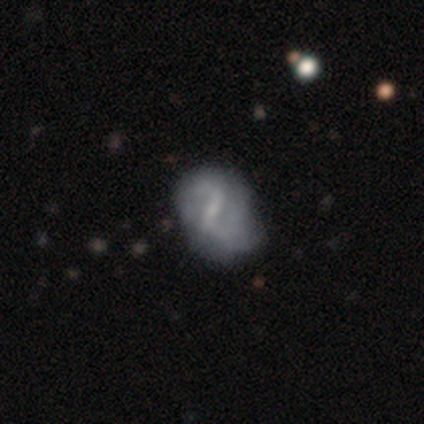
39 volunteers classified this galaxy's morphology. Overall: featured or disk (85%). Edge-on disk: no (100%). Bar: strong (52%; weak 42%). Spiral arms: yes (91%). Spiral arm count: 2 (80%). Spiral winding: loose (57%; medium 27%). Bulge size: small (55%; none 27%). Merging: minor disturbance (32%; none 29%).